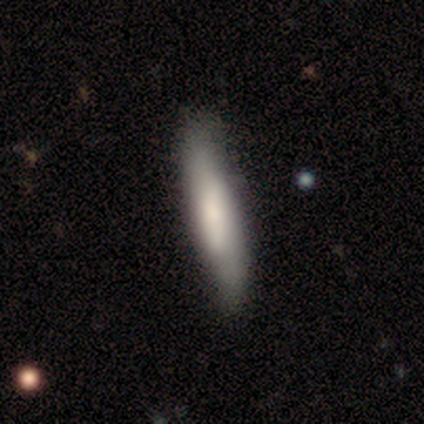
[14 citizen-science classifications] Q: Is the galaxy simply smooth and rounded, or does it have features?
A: smooth — 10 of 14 (71%).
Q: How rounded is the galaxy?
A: cigar-shaped — 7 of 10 (70%).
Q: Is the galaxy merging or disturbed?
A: none — 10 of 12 (83%).